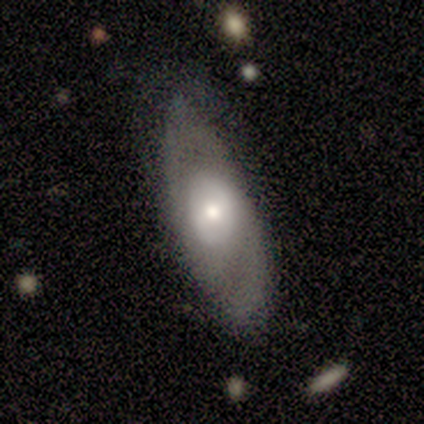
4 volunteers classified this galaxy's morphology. This appears to be a featured or disk galaxy (50%) with a strong bar (50%, tied with no), 2 (100%) tight (50%, tied with medium) spiral arms (100%) and a moderate central bulge (50%, tied with none). Merging: none (67%).